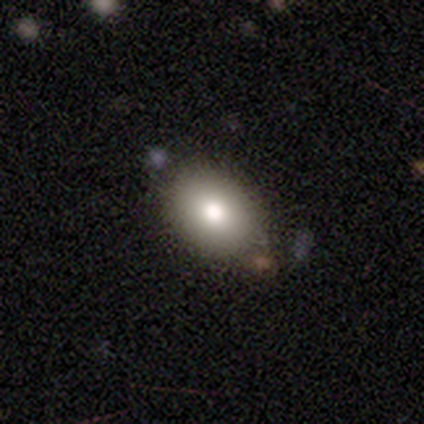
This is clearly a smooth galaxy (80%). How rounded: likely in between (75%). Merging: likely none (60%).